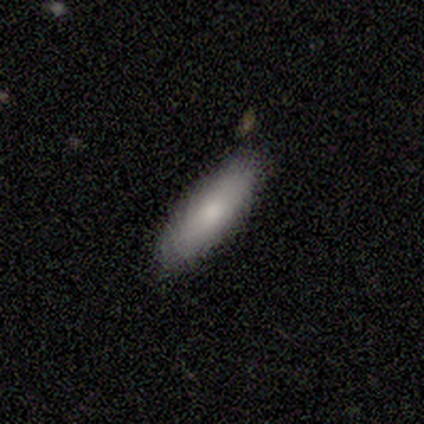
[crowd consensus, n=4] Q: Smooth or featured?
A: smooth (100%)
Q: How rounded?
A: in between (100%)
Q: Merging?
A: none (100%)